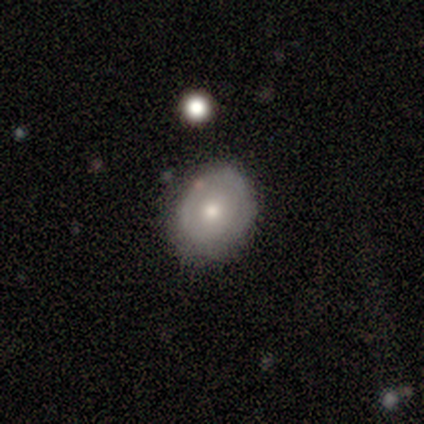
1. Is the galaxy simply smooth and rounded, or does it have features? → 54% smooth, 39% featured or disk, 7% star or artifact.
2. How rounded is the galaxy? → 57% in between, 43% round, 0% cigar-shaped.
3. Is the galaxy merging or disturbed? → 75% none, 19% minor disturbance, 5% major disturbance, 1% merger.